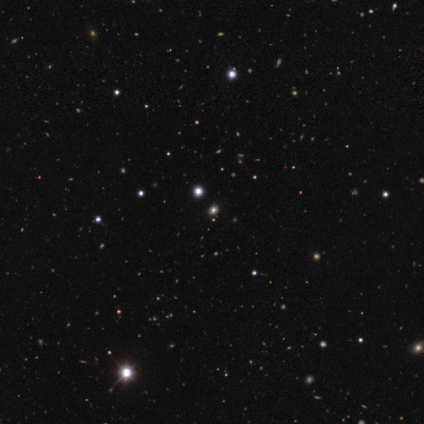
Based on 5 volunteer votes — Morphology: type=star or artifact (60%).